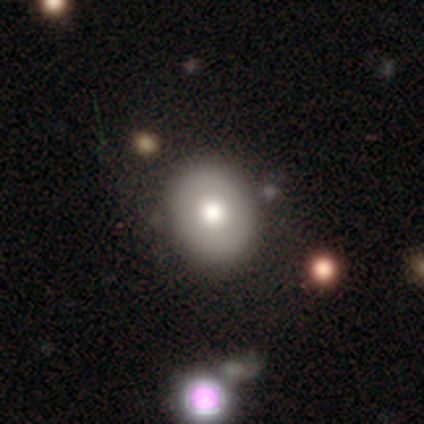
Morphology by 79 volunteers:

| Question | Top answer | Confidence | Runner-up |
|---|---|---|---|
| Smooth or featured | smooth | 61% | featured or disk (34%) |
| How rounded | round | 54% | in between (46%) |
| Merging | none | 39% | minor disturbance (9%) |